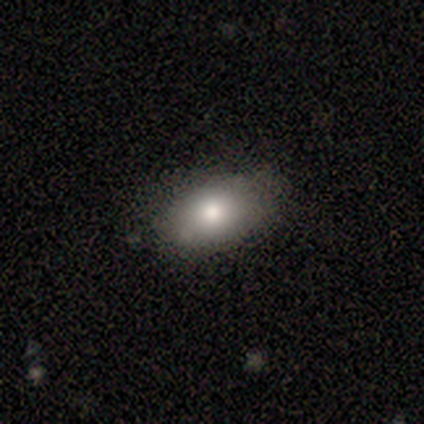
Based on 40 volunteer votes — smooth-or-featured: smooth: 78% | featured or disk: 18% | star or artifact: 5%
  how-rounded: in between: 94% | round: 6% | cigar-shaped: 0%
  merging: none: 87% | minor disturbance: 13% | major disturbance: 0% | merger: 0%